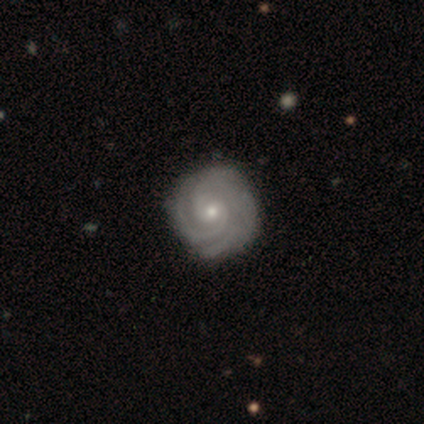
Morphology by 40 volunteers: A featured or disk galaxy (95%) with no bar (66%), 2 (47%) tight (82%) spiral arms (100%) and a small central bulge (63%).

Vote fractions:
- Smooth or featured? featured or disk: 95% / smooth: 5% / star or artifact: 0%
- Edge-on disk? no: 100% / yes: 0%
- Bar? no: 66% / weak: 32% / strong: 3%
- Spiral arms? yes: 100% / no: 0%
- Spiral winding? tight: 82% / medium: 18% / loose: 0%
- Spiral arm count? 2: 47% / 3: 29% / 4: 11% / can't tell: 11% / more than 4: 3% / 1: 0%
- Bulge size? small: 63% / moderate: 34% / large: 3% / dominant: 0% / none: 0%
- Merging? none: 52% / minor disturbance: 8% / merger: 5% / major disturbance: 2%